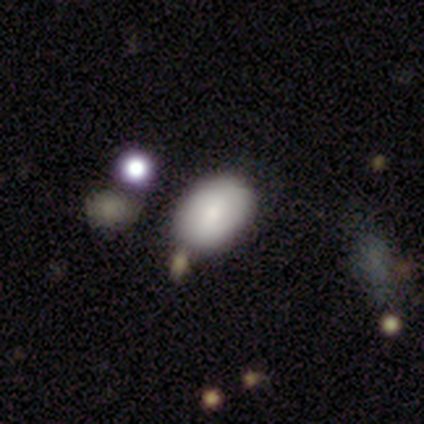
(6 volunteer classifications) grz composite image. It shows a smooth galaxy with no disk features (67%) that is in between round and cigar-shaped (100%). Merging: none (83%).